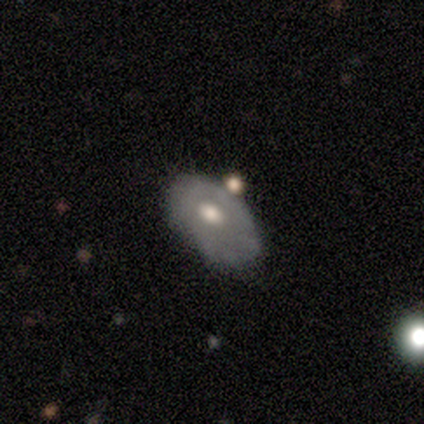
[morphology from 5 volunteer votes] smooth_or_featured: smooth (p=0.60) [alt: featured or disk p=0.40]
how_rounded: in between (p=1.00)
merging: none (p=0.60) [alt: minor disturbance p=0.40]